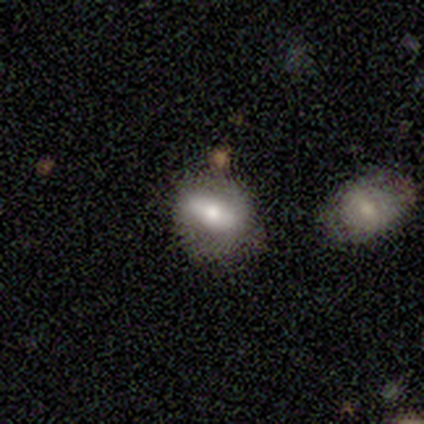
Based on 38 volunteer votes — Smooth or featured: smooth — 74% (featured or disk — 26%)
How rounded: in between — 71% (round — 18%)
Merging: none — 61% (minor disturbance — 24%)